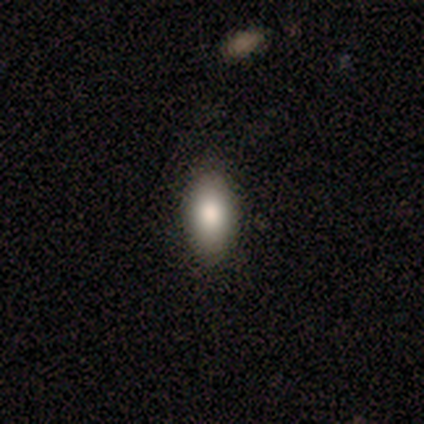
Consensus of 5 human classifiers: Smooth or featured: smooth — 100%
How rounded: in between — 80% (round — 20%)
Merging: none — 100%